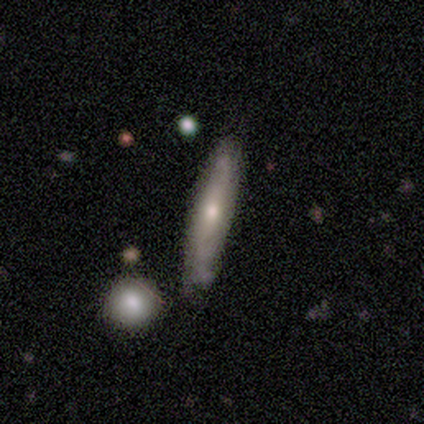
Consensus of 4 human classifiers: Smooth or featured?
  - smooth: 50% * (tied)
  - featured or disk: 50% * (tied)
  - star or artifact: 0%
How rounded?
  - cigar-shaped: 100% *
  - round: 0%
  - in between: 0%
Merging?
  - none: 75% *
  - minor disturbance: 25%
  - major disturbance: 0%
  - merger: 0%